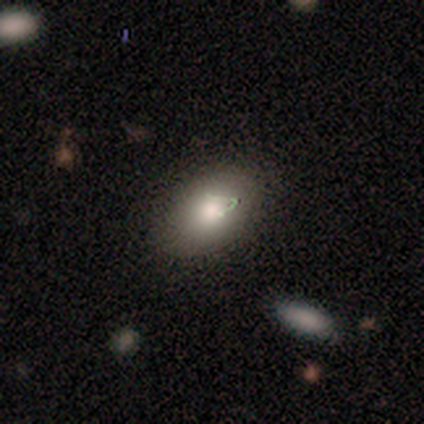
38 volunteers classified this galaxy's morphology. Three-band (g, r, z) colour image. It shows a smooth galaxy with no disk features (68%) that is in between round and cigar-shaped (81%). Merging: none (71%).